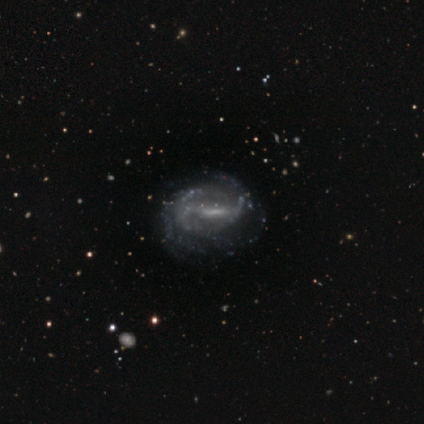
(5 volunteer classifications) Smooth or featured? featured or disk (100%)
Edge-on disk? no (100%)
Bar? strong (40%, tied with weak)
Spiral arms? yes (60%)
Spiral winding? tight (67%)
Spiral arm count? can't tell (67%)
Bulge size? small (40%, tied with none)
Merging? none (80%)